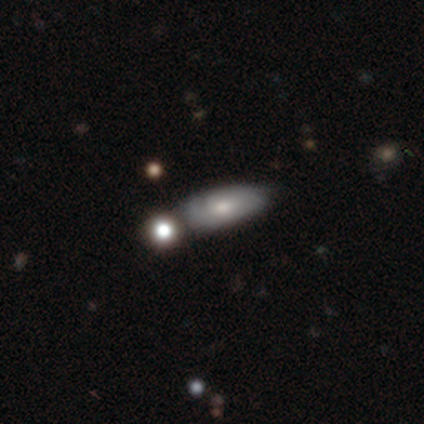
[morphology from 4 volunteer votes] smooth 75%, featured or disk 25%, star or artifact 0%. Down the decision tree: how rounded — in between (100%); merging — none (100%).